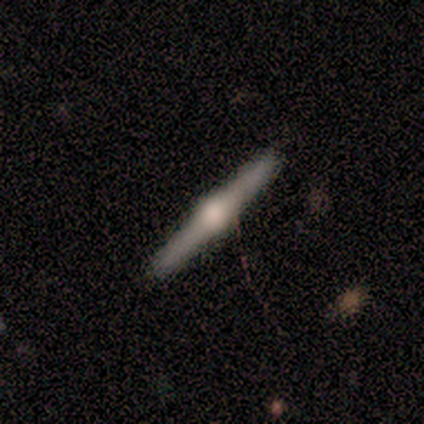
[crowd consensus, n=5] Morphology: type=featured or disk (80%); edge-on=yes (100%); edge-on bulge=rounded (100%); merging=none (80%).